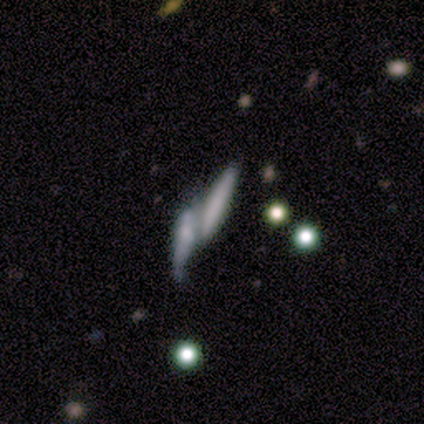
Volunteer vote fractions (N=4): smooth 50%, featured or disk 25%, star or artifact 25%. Down the decision tree: how rounded — in between (50%, tied with cigar-shaped); merging — merger (100%).